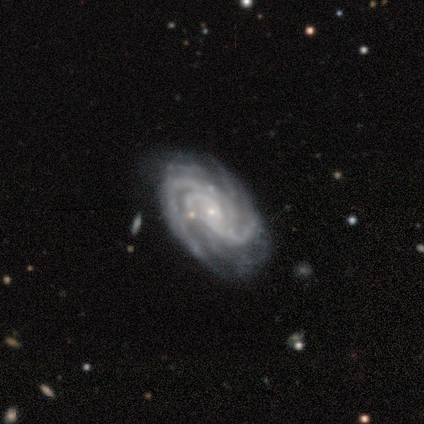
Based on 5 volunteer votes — Smooth or featured? featured or disk (100%)
Edge-on disk? no (100%)
Bar? no (60%)
Spiral arms? yes (100%)
Spiral winding? tight (100%)
Spiral arm count? 3 (40%)
Bulge size? small (100%)
Merging? none (100%)